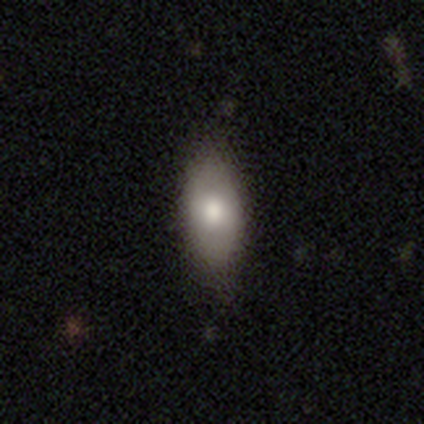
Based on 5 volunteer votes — Smooth or featured: smooth — 100%
How rounded: in between — 100%
Merging: none — 60% (minor disturbance — 40%)